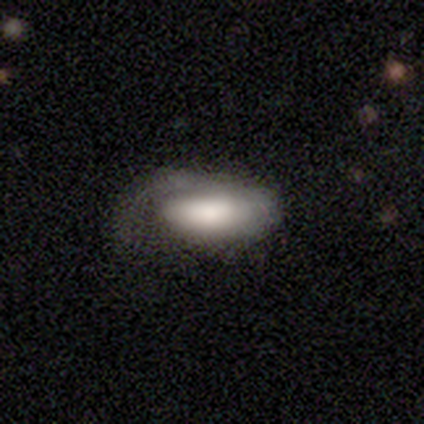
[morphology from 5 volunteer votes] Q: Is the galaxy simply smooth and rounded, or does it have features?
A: smooth — 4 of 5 (80%).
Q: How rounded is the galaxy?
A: in between — 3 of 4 (75%).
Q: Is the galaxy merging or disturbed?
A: major disturbance — 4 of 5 (80%).